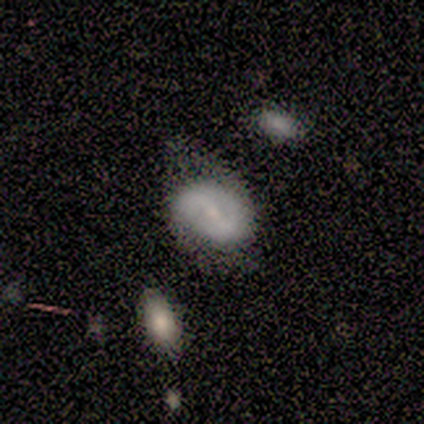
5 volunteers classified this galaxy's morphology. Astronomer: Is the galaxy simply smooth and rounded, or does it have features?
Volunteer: smooth — 40%, tied with featured or disk at 40%.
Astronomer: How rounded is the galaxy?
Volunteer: round — 50%, tied with in between at 50%.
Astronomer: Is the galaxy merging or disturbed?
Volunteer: minor disturbance — 75%.